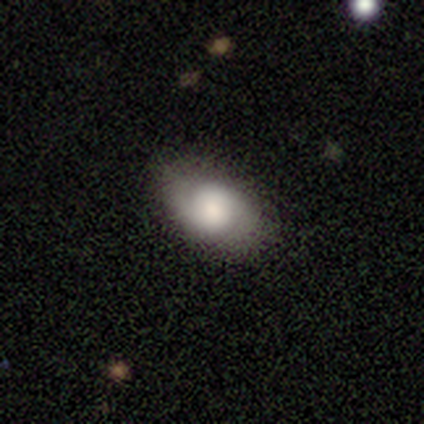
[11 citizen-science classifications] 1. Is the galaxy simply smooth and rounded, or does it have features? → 64% smooth, 36% featured or disk, 0% star or artifact.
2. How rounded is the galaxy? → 100% in between, 0% round, 0% cigar-shaped.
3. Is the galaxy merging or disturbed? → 55% none, 36% major disturbance, 9% minor disturbance, 0% merger.